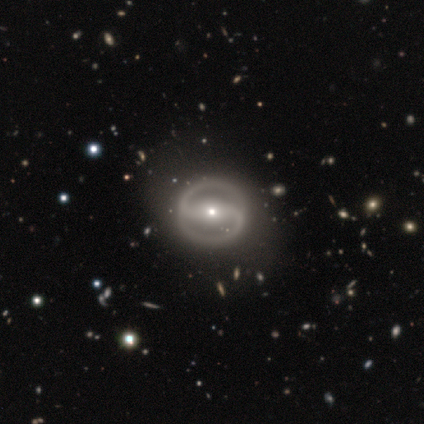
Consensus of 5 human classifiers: Q: Smooth or featured?
A: featured or disk (100%)
Q: Edge-on disk?
A: no (100%)
Q: Bar?
A: strong (60%); runner-up: weak (20%)
Q: Spiral arms?
A: yes (80%); runner-up: no (20%)
Q: Spiral winding?
A: tight (50%); tied with: medium (50%)
Q: Spiral arm count?
A: 2 (100%)
Q: Bulge size?
A: small (80%); runner-up: moderate (20%)
Q: Merging?
A: none (80%); runner-up: minor disturbance (20%)